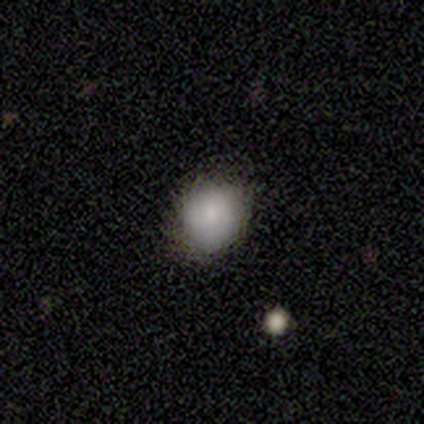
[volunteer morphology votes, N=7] Q: Smooth or featured?
A: smooth (100%)
Q: How rounded?
A: in between (57%); runner-up: round (43%)
Q: Merging?
A: none (71%); runner-up: minor disturbance (29%)